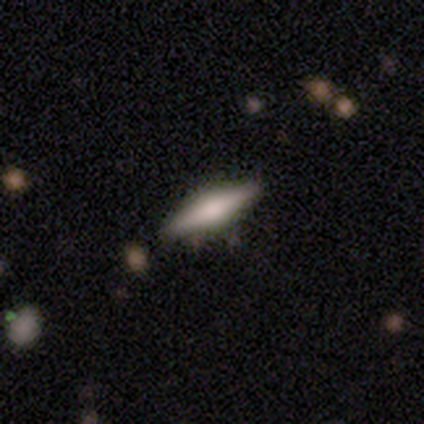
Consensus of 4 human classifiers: This is possibly a smooth galaxy (50%). How rounded: possibly in between (50%, tied with cigar-shaped). Merging: clearly none (100%).